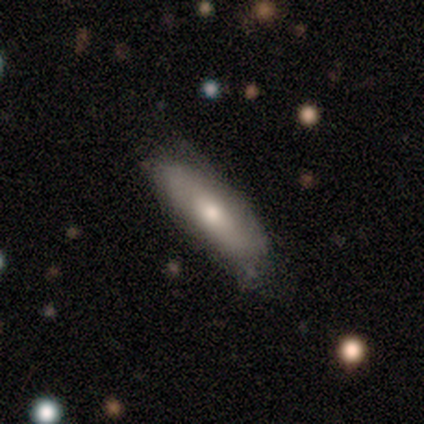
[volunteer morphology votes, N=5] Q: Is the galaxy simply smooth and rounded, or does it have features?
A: featured or disk — 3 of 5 (60%).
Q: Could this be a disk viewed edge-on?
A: no — 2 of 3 (67%).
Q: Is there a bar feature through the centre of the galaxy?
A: weak — 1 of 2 (50%, tied with no).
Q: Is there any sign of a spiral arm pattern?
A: no — 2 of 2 (100%).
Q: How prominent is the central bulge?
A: moderate — 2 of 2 (100%).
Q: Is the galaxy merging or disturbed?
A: none — 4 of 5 (80%).